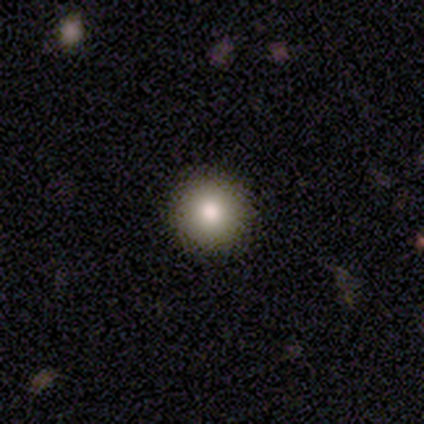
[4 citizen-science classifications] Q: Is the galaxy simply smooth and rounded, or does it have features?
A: smooth — 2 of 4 (50%).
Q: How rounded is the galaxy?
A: round — 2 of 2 (100%).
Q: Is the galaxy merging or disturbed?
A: none — 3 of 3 (100%).